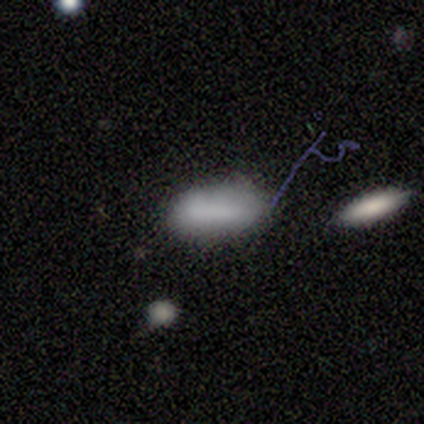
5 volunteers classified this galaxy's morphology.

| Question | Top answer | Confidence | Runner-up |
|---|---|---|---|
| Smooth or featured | smooth | 60% | star or artifact (40%) |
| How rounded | in between | 67% | cigar-shaped (33%) |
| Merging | none | 100% | — |